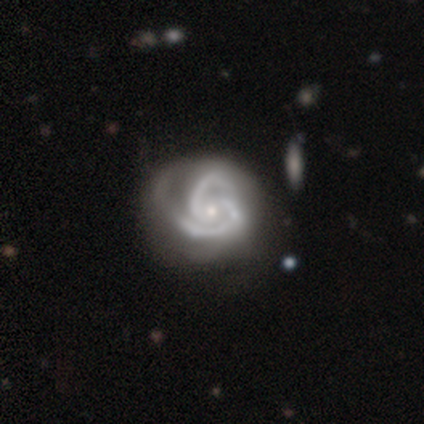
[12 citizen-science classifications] featured or disk 100%, smooth 0%, star or artifact 0%. Down the decision tree: edge-on disk — no (100%); bar — no (75%); spiral arms — yes (100%); spiral arm count — 2 (83%); spiral winding — tight (58%); bulge size — small (83%); merging — none (58%).